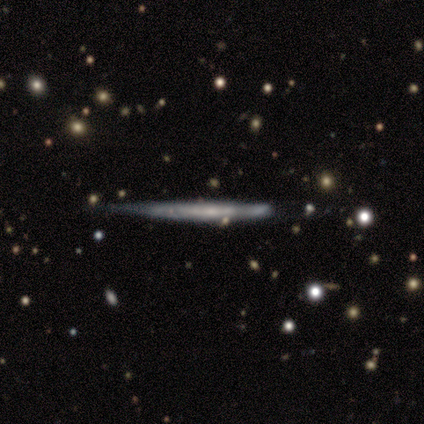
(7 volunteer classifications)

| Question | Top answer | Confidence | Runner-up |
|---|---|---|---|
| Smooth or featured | featured or disk | 57% | smooth (29%) |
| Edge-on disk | yes | 100% | — |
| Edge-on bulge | none | 100% | — |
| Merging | none | 67% | minor disturbance (33%) |